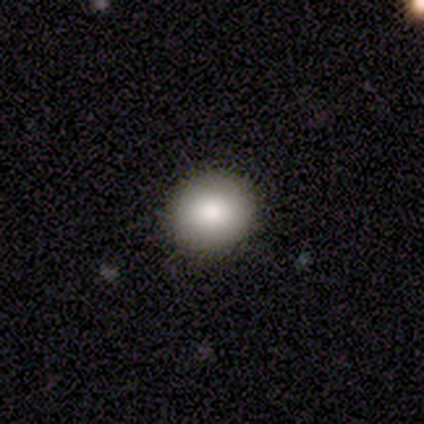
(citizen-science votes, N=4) Smooth or featured?
  - smooth: 75% *
  - featured or disk: 25%
  - star or artifact: 0%
How rounded?
  - in between: 67% *
  - round: 33%
  - cigar-shaped: 0%
Merging?
  - none: 100% *
  - minor disturbance: 0%
  - major disturbance: 0%
  - merger: 0%